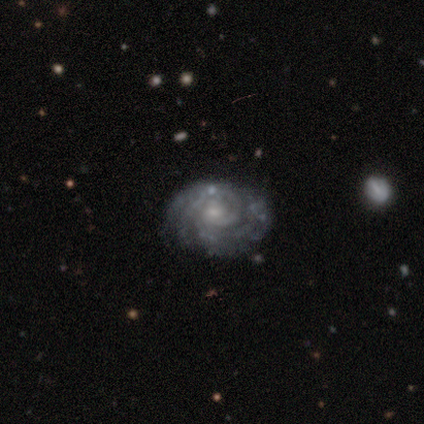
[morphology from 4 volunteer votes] smooth_or_featured: featured or disk (p=1.00)
disk_edge_on: no (p=1.00)
bar: weak (p=0.50) [alt: strong p=0.25]
has_spiral_arms: yes (p=1.00)
spiral_winding: tight (p=1.00)
spiral_arm_count: can't tell (p=0.75) [alt: 3 p=0.25]
bulge_size: small (p=0.50) [alt: moderate p=0.25]
merging: none (p=1.00)